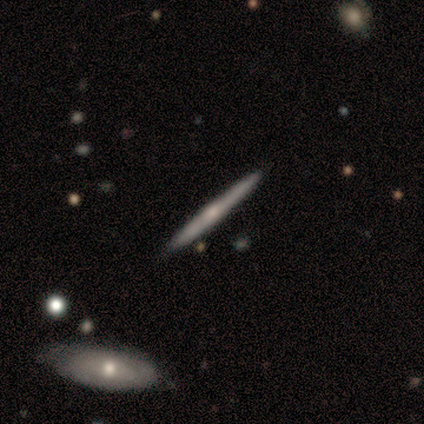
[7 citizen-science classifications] featured or disk 86%, smooth 14%, star or artifact 0%. Down the decision tree: edge-on disk — yes (100%); edge-on bulge — rounded (67%); merging — none (86%).